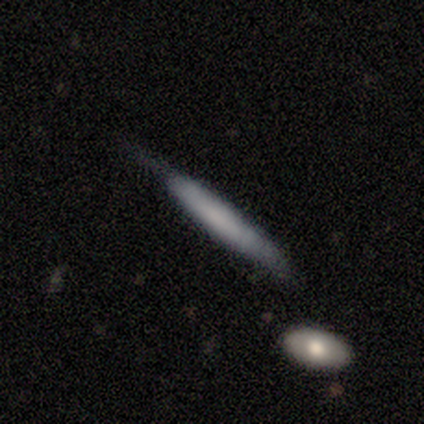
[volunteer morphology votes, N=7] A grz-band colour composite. It shows a smooth galaxy with no disk features (100%) that is cigar-shaped (100%). Merging: none (57%).